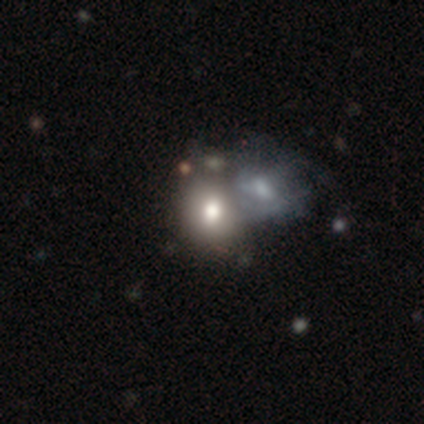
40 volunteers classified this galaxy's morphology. Smooth or featured?
  - smooth: 62% *
  - featured or disk: 25%
  - star or artifact: 12%
How rounded?
  - in between: 56% *
  - round: 40%
  - cigar-shaped: 4%
Merging?
  - merger: 71% *
  - none: 26%
  - major disturbance: 3%
  - minor disturbance: 0%